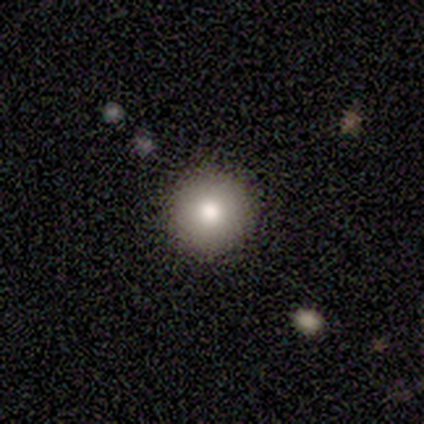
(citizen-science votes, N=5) Smooth or featured: smooth — 80% (star or artifact — 20%)
How rounded: round — 100%
Merging: none — 100%